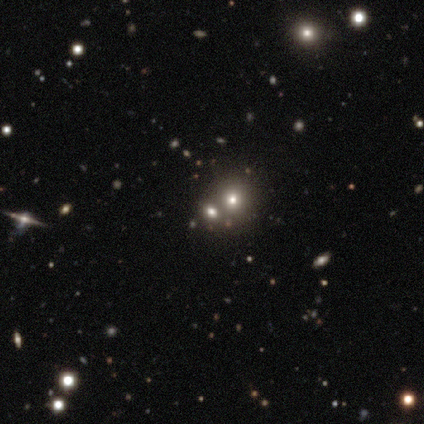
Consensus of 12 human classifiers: Smooth or featured?
  - smooth: 50% *
  - featured or disk: 25%
  - star or artifact: 25%
How rounded?
  - round: 50% * (tied)
  - in between: 50% * (tied)
  - cigar-shaped: 0%
Merging?
  - merger: 78% *
  - none: 22%
  - minor disturbance: 0%
  - major disturbance: 0%